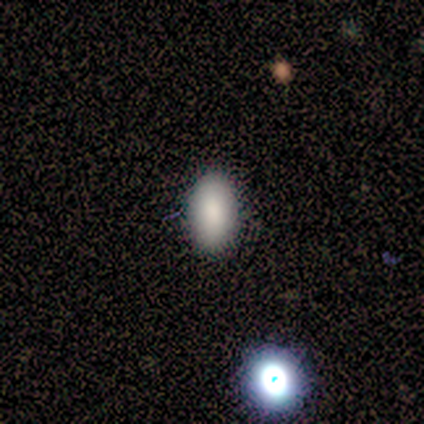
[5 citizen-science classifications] Smooth or featured? 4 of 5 (80%) said smooth. How rounded? 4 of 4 (100%) said in between. Merging? 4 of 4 (100%) said none.